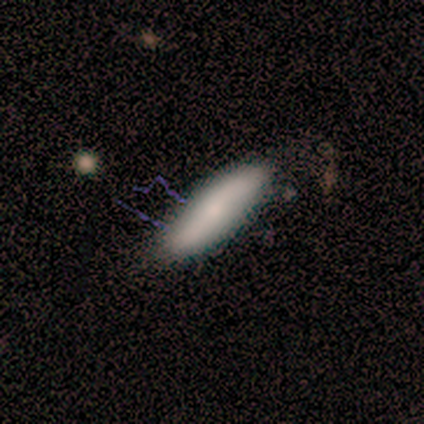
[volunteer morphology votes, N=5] Smooth or featured? smooth (60%)
How rounded? cigar-shaped (67%)
Merging? minor disturbance (75%)